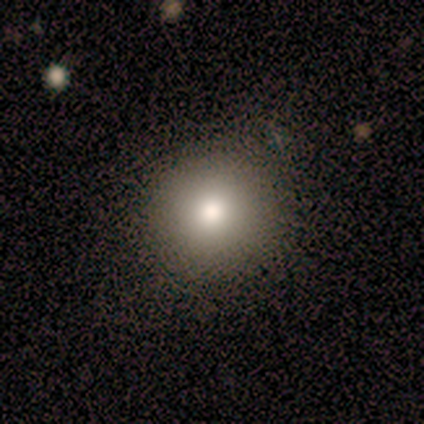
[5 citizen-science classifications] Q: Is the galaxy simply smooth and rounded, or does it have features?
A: smooth — 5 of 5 (100%).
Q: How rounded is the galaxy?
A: round — 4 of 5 (80%).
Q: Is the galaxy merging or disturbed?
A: none — 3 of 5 (60%).